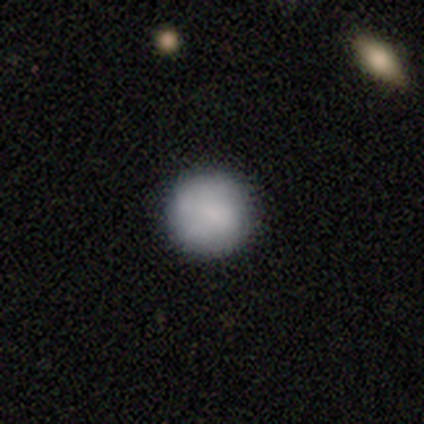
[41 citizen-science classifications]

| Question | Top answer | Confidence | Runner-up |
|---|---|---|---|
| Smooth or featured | smooth | 83% | featured or disk (10%) |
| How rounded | round | 100% | — |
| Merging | none | 87% | minor disturbance (8%) |